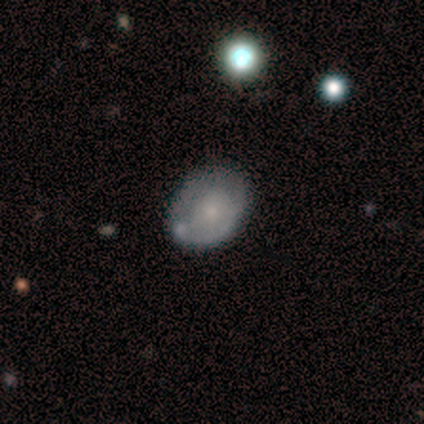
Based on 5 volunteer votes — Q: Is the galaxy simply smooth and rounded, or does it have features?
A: smooth — 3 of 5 (60%).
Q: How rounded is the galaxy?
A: in between — 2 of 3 (67%).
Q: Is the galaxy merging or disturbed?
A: none — 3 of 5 (60%).